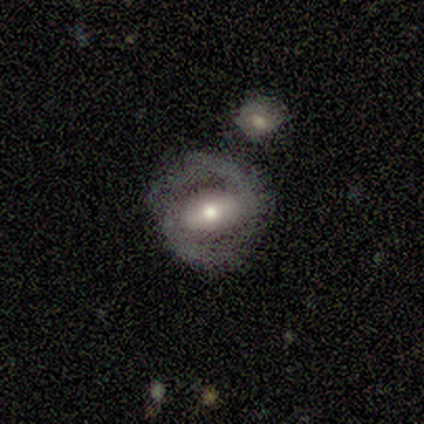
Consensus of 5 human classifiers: This appears to be a featured or disk galaxy (100%) with a strong bar (40%, tied with no), 2 (100%) medium (50%) spiral arms (80%) and a moderate central bulge (80%). Merging: none (80%).